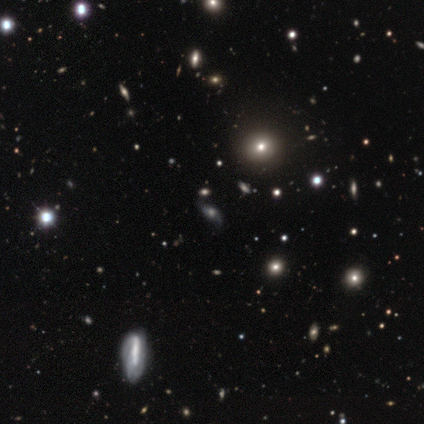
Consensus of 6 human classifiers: smooth-or-featured: star or artifact: 100% | smooth: 0% | featured or disk: 0%